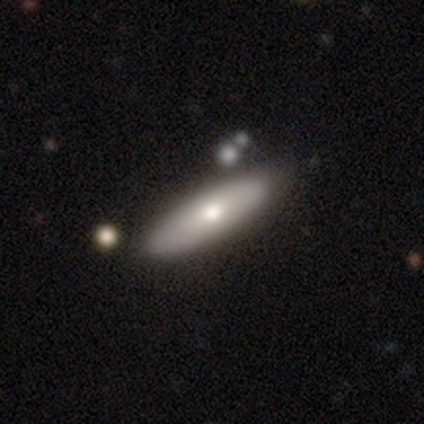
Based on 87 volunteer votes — Morphology: type=smooth (66%); roundness=cigar-shaped (63%); merging=none (78%).